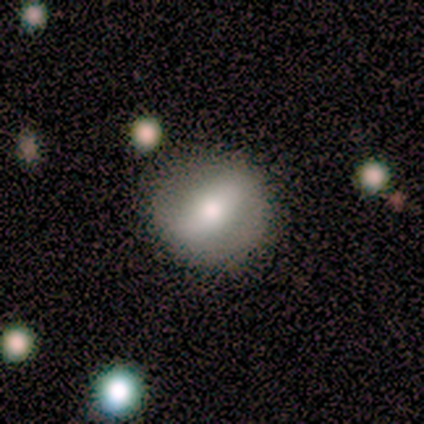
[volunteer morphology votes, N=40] A smooth galaxy with no disk features (57%) that is round (74%). Merging: none (78%).